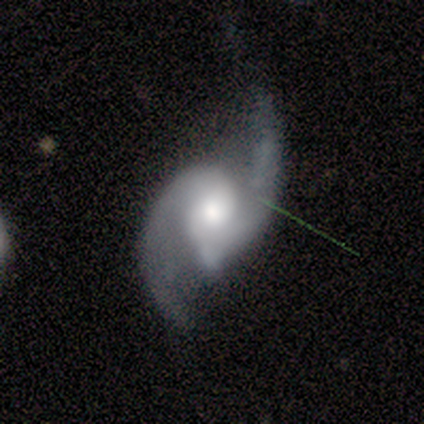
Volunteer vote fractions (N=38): Morphology: type=featured or disk (89%); edge-on=no (97%); bar=no (52%); spiral arms=yes (100%); winding=loose (48%); arm count=2 (97%); bulge=moderate (67%); merging=none (57%).